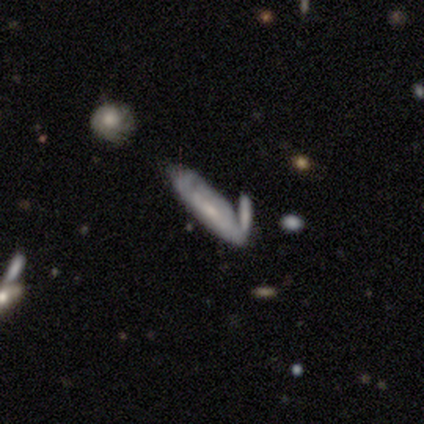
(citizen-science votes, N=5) Smooth or featured? featured or disk (60%)
Edge-on disk? yes (67%)
Edge-on bulge? none (100%)
Merging? none (40%, tied with minor disturbance)